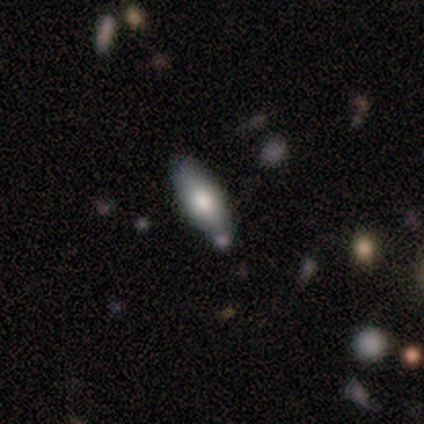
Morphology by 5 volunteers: smooth_or_featured: smooth (p=0.80) [alt: featured or disk p=0.20]
how_rounded: in between (p=0.75) [alt: cigar-shaped p=0.25]
merging: none (p=0.60) [alt: minor disturbance p=0.20]